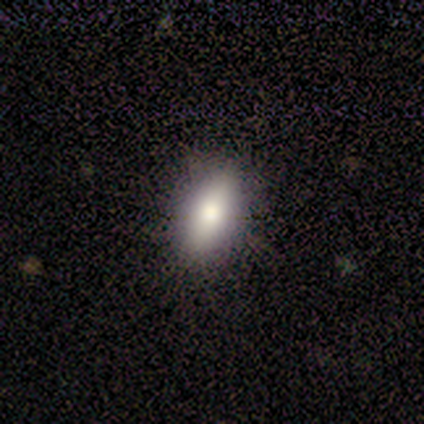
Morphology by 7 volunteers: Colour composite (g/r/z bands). It shows a smooth galaxy with no disk features (71%) that is in between round and cigar-shaped (100%). Merging: none (100%).